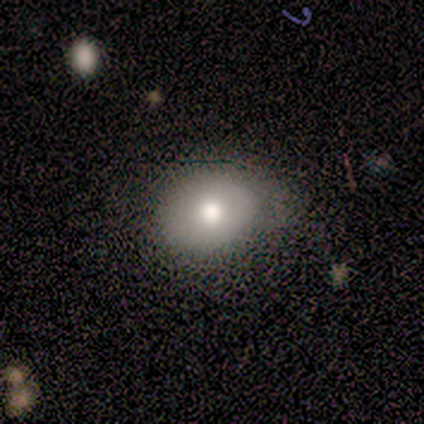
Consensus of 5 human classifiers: A smooth galaxy with no disk features (80%) that is round (50%, tied with in between).

Vote fractions:
- Smooth or featured? smooth: 80% / star or artifact: 20% / featured or disk: 0%
- How rounded? round: 50% (tied) / in between: 50% (tied) / cigar-shaped: 0%
- Merging? none: 75% / merger: 25% / minor disturbance: 0% / major disturbance: 0%